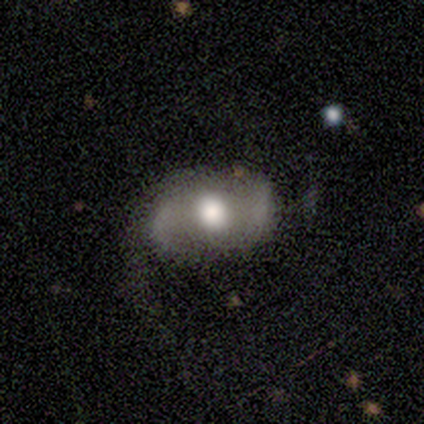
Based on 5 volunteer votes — Smooth or featured? featured or disk (80%)
Edge-on disk? no (100%)
Bar? no (75%)
Spiral arms? yes (75%)
Spiral winding? loose (67%)
Spiral arm count? 2 (100%)
Bulge size? large (50%, tied with moderate)
Merging? none (40%, tied with major disturbance)